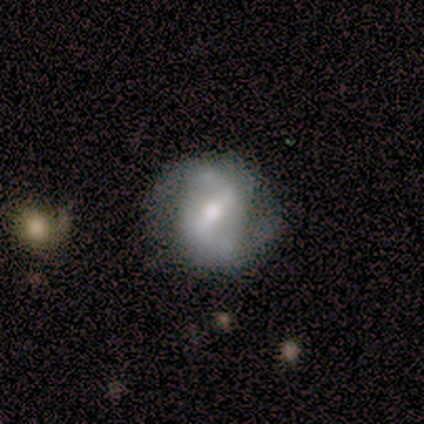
smooth-or-featured: featured or disk: 82% | smooth: 16% | star or artifact: 3%
  disk-edge-on: no: 97% | yes: 3%
    bar: strong: 63% | weak: 30% | no: 7%
    has-spiral-arms: yes: 83% | no: 17%
      spiral-winding: medium: 56% | loose: 24% | tight: 20%
      spiral-arm-count: 2: 96% | 1: 4% | 3: 0% | 4: 0% | more than 4: 0% | can't tell: 0%
    bulge-size: moderate: 67% | small: 30% | large: 3% | dominant: 0% | none: 0%
  merging: none: 68% | minor disturbance: 22% | major disturbance: 11% | merger: 0%